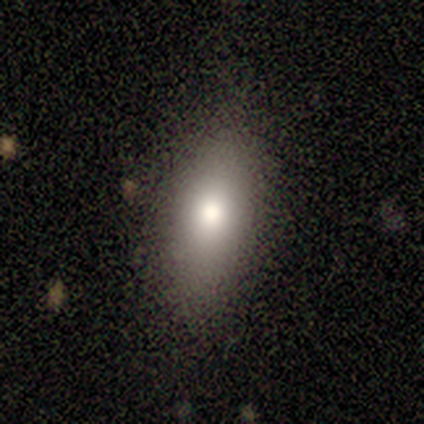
smooth_or_featured: smooth (p=0.40) [tied with: featured or disk p=0.40]
how_rounded: in between (p=0.50) [tied with: cigar-shaped p=0.50]
merging: none (p=1.00)